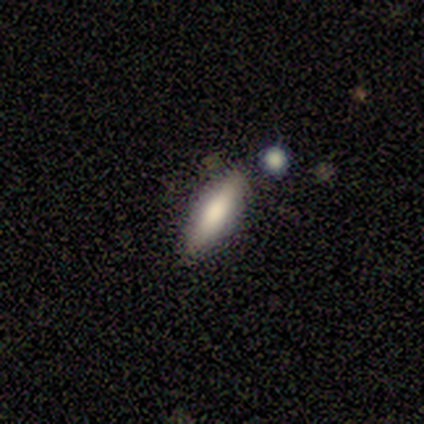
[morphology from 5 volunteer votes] Volunteers were most divided on "smooth or featured": smooth: 80%, featured or disk: 20%, star or artifact: 0%. More confident: how rounded — cigar-shaped (100%); merging — none (80%).